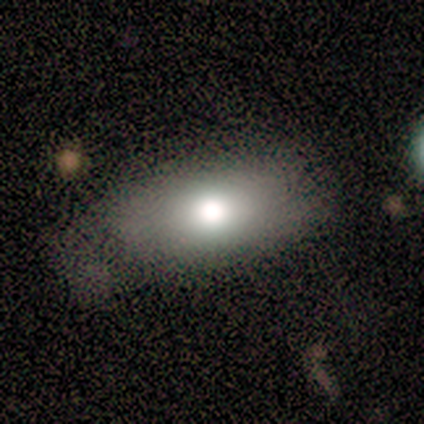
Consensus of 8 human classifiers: Smooth or featured? 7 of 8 (88%) said smooth. How rounded? 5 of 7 (71%) said in between. Merging? 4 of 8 (50%) said none.